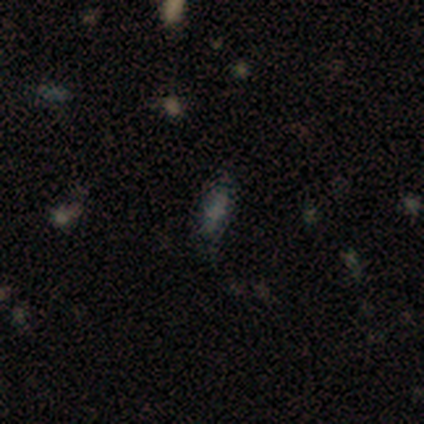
smooth-or-featured: smooth: 50% | featured or disk: 25% | star or artifact: 25%
  how-rounded: in between: 100% | round: 0% | cigar-shaped: 0%
  merging: none: 100% | minor disturbance: 0% | major disturbance: 0% | merger: 0%